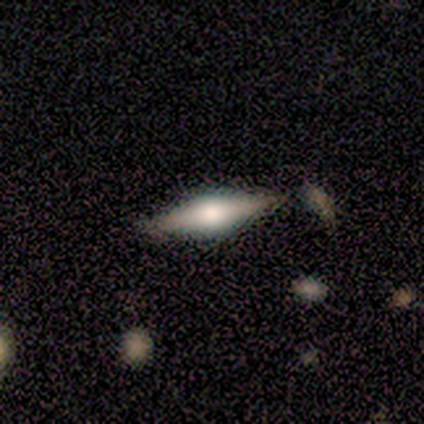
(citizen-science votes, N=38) Smooth or featured: featured or disk — 58% (smooth — 34%)
Edge-on disk: yes — 95% (no — 5%)
Edge-on bulge: rounded — 90% (none — 10%)
Merging: none — 91% (minor disturbance — 9%)